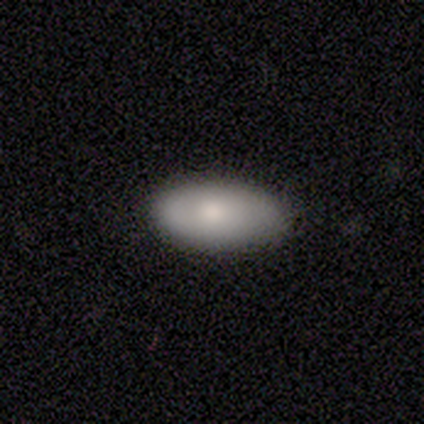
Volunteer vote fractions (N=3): smooth_or_featured: smooth (p=0.67) [alt: featured or disk p=0.33]
how_rounded: in between (p=1.00)
merging: minor disturbance (p=0.67) [alt: major disturbance p=0.33]